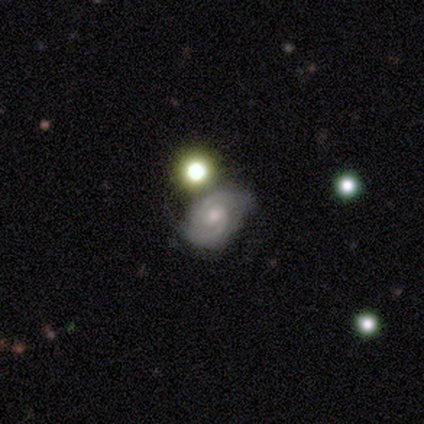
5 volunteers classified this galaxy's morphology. Volunteers were most divided on "merging" (2-way tie): none: 50%, minor disturbance: 50%, major disturbance: 0%, merger: 0%. More confident: bar — no (100%); spiral arms — yes (100%); spiral arm count — 2 (100%); smooth or featured — featured or disk (80%); edge-on disk — no (75%); spiral winding — tight (67%); bulge size — moderate (67%).